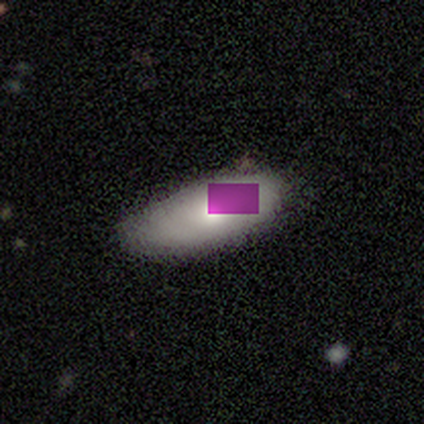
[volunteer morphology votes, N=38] smooth 50%, star or artifact 34%, featured or disk 16%. Down the decision tree: how rounded — in between (79%); merging — none (56%).